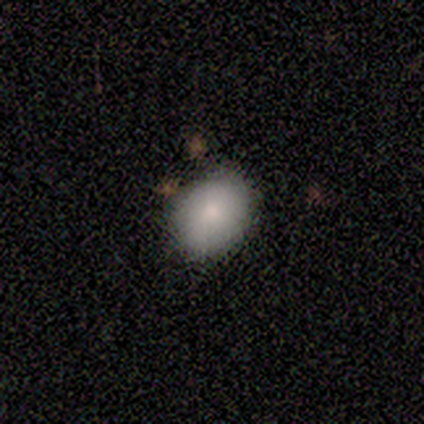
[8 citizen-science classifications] Smooth or featured: smooth — 75% (featured or disk — 25%)
How rounded: round — 83% (in between — 17%)
Merging: none — 100%